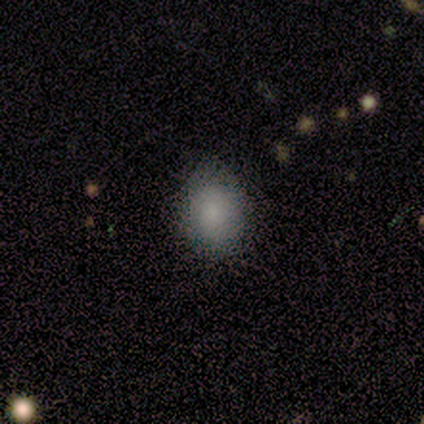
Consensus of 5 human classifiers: smooth_or_featured: smooth (p=1.00)
how_rounded: in between (p=1.00)
merging: none (p=1.00)